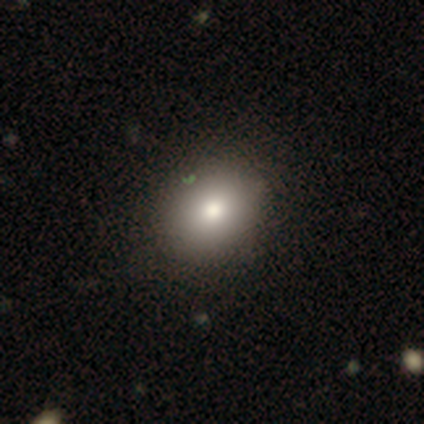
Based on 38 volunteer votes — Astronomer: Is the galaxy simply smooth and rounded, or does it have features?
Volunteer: smooth — 89%.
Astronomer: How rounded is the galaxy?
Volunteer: round — 59% (runner-up: in between, 41%).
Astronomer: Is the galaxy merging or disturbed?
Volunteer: none — 82%.